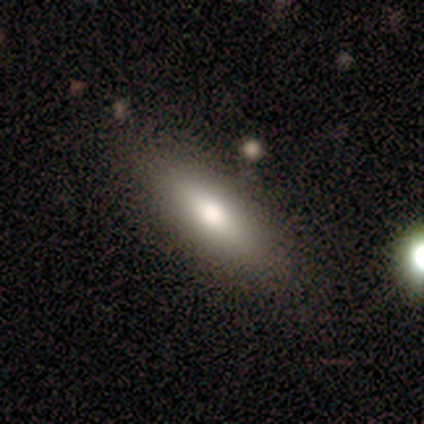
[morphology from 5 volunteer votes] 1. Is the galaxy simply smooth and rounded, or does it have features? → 80% smooth, 20% featured or disk, 0% star or artifact.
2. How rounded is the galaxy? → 100% in between, 0% round, 0% cigar-shaped.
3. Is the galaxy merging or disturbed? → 60% none, 20% minor disturbance, 20% major disturbance, 0% merger.